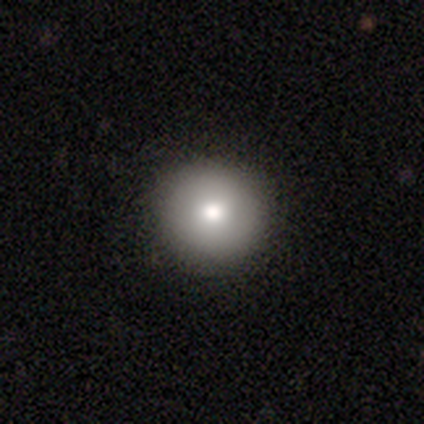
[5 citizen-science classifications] smooth 100%, featured or disk 0%, star or artifact 0%. Down the decision tree: how rounded — round (100%); merging — none (80%).